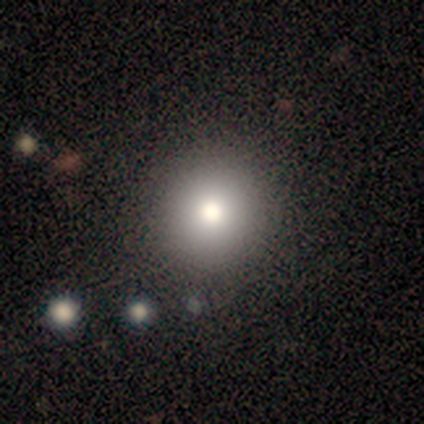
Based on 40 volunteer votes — A smooth galaxy with no disk features (65%) that is round (96%). Merging: none (84%).